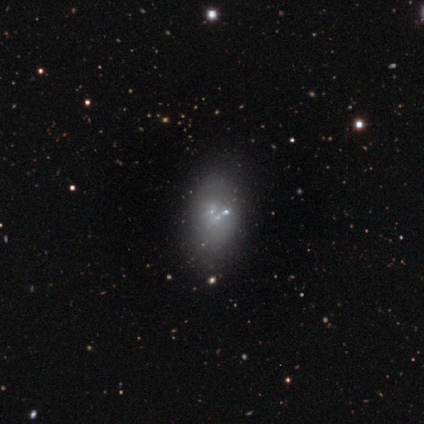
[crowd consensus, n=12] Smooth or featured? 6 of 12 (50%) said smooth. How rounded? 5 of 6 (83%) said in between. Merging? 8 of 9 (89%) said none.